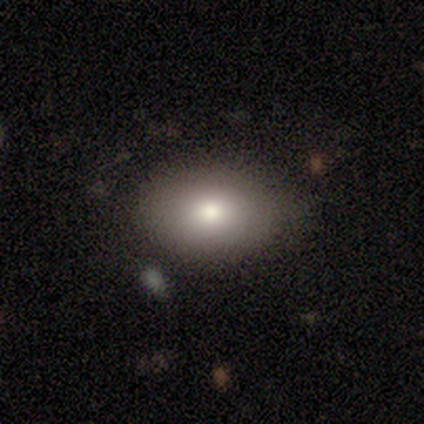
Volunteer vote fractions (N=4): This appears to be a smooth galaxy with no disk features (100%) that is in between round and cigar-shaped (75%). Merging: none (50%, tied with minor disturbance).